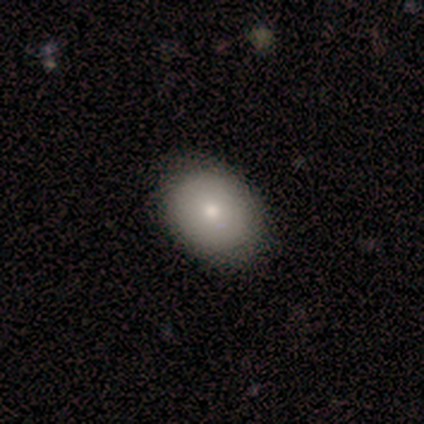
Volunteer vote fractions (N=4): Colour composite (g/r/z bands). It shows a smooth galaxy with no disk features (100%) that is in between round and cigar-shaped (75%). Merging: none (100%).